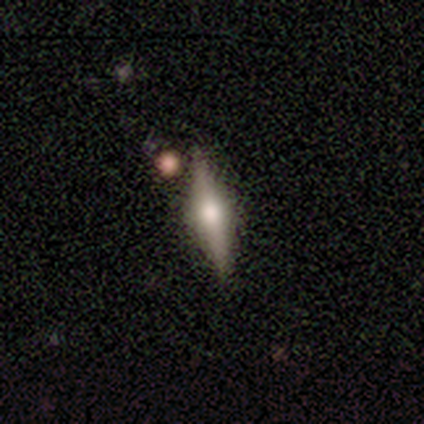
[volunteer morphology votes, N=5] smooth_or_featured: featured or disk (p=0.60) [alt: smooth p=0.40]
disk_edge_on: yes (p=1.00)
edge_on_bulge: rounded (p=1.00)
merging: none (p=0.80) [alt: minor disturbance p=0.20]